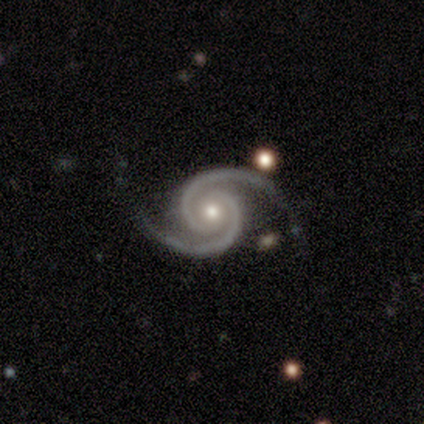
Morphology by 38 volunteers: Smooth or featured? featured or disk (92%)
Edge-on disk? no (100%)
Bar? no (80%)
Spiral arms? yes (100%)
Spiral winding? tight (63%)
Spiral arm count? 2 (97%)
Bulge size? moderate (60%)
Merging? none (89%)